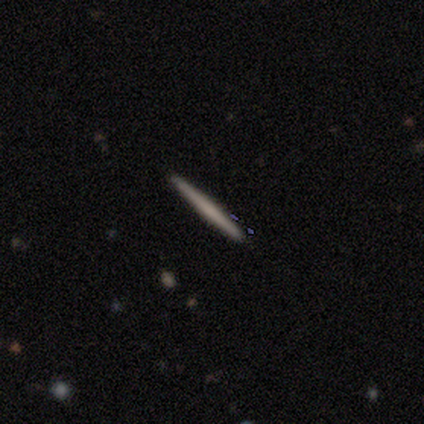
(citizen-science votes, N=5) smooth-or-featured: featured or disk: 60% | smooth: 40% | star or artifact: 0%
  disk-edge-on: yes: 67% | no: 33%
    edge-on-bulge: none: 50% (tied) | rounded: 50% (tied) | boxy: 0%
  merging: none: 60% | minor disturbance: 40% | major disturbance: 0% | merger: 0%